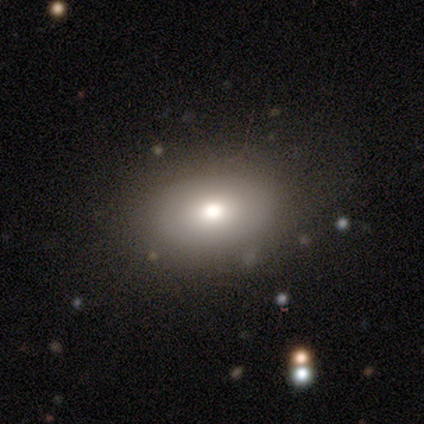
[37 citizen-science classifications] A smooth galaxy with no disk features (76%) that is in between round and cigar-shaped (89%). Merging: none (91%).